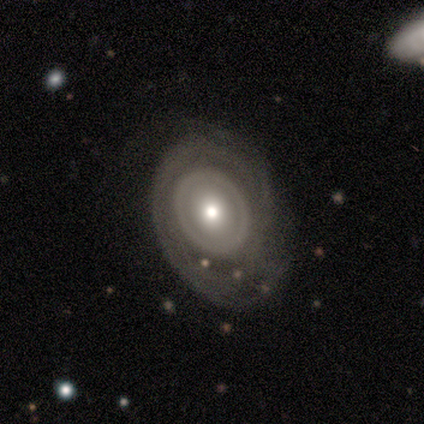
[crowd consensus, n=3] This appears to be a featured or disk galaxy (100%) with no bar (100%), no spiral arms (67%) and a moderate central bulge (100%). Merging: major disturbance (100%).